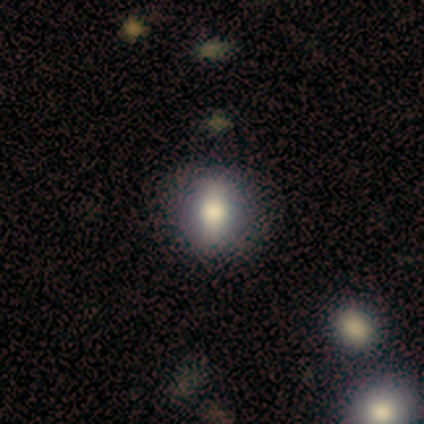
smooth-or-featured: smooth: 82% | featured or disk: 18% | star or artifact: 0%
  how-rounded: in between: 67% | round: 33% | cigar-shaped: 0%
  merging: none: 91% | major disturbance: 9% | minor disturbance: 0% | merger: 0%